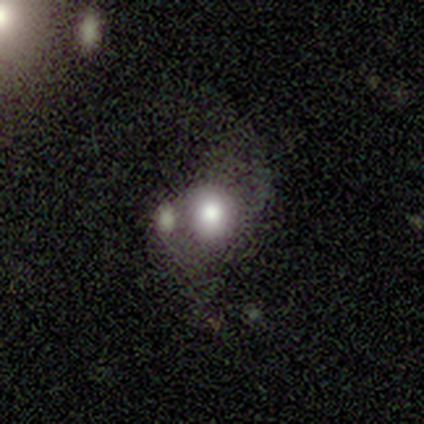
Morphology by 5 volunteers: Smooth or featured? smooth (60%)
How rounded? round (100%)
Merging? merger (100%)